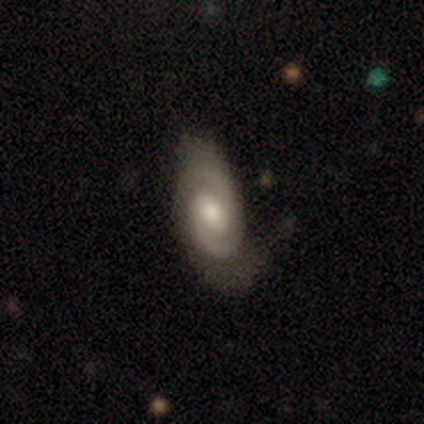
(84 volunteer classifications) Smooth or featured? featured or disk (89%)
Edge-on disk? no (97%)
Bar? weak (55%)
Spiral arms? yes (95%)
Spiral winding? tight (58%)
Spiral arm count? 2 (83%)
Bulge size? moderate (58%)
Merging? none (56%)